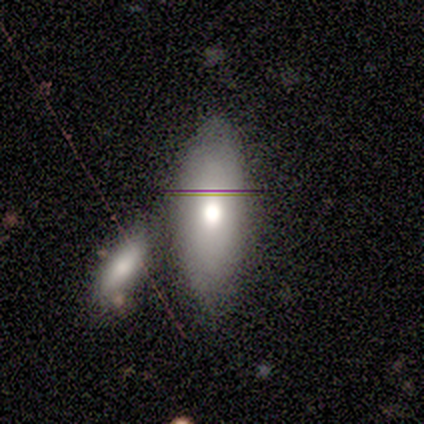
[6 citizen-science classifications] Smooth or featured: smooth — 83% (featured or disk — 17%)
How rounded: in between — 100%
Merging: none — 83% (minor disturbance — 17%)